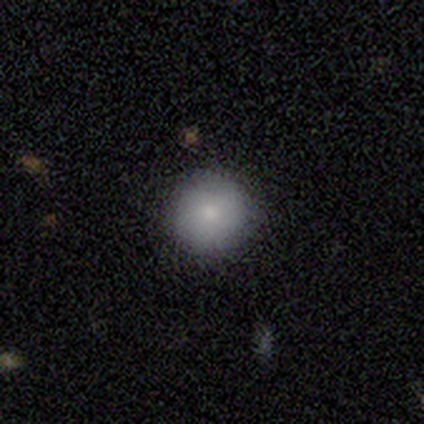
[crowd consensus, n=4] Q: Smooth or featured?
A: smooth (75%); runner-up: featured or disk (25%)
Q: How rounded?
A: round (100%)
Q: Merging?
A: none (100%)